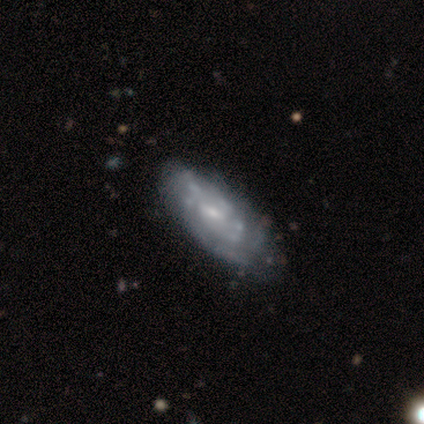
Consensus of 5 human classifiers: Q: Smooth or featured?
A: featured or disk (100%)
Q: Edge-on disk?
A: no (100%)
Q: Bar?
A: no (60%); runner-up: weak (40%)
Q: Spiral arms?
A: yes (100%)
Q: Spiral winding?
A: tight (80%); runner-up: medium (20%)
Q: Spiral arm count?
A: 3 (40%); tied with: can't tell (40%)
Q: Bulge size?
A: small (60%); runner-up: moderate (20%)
Q: Merging?
A: none (100%)